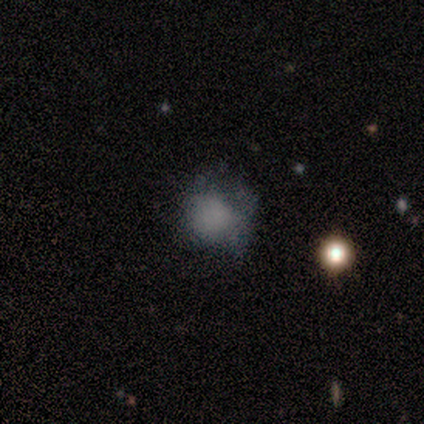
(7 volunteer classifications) Smooth or featured? smooth (57%)
How rounded? round (100%)
Merging? none (60%)